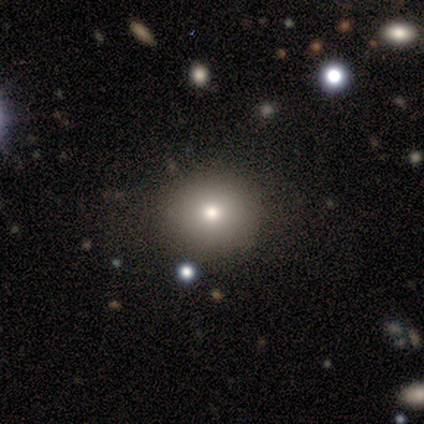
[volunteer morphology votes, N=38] A smooth galaxy with no disk features (71%) that is round (89%).

Vote fractions:
- Smooth or featured? smooth: 71% / featured or disk: 16% / star or artifact: 13%
- How rounded? round: 89% / in between: 11% / cigar-shaped: 0%
- Merging? none: 91% / minor disturbance: 9% / major disturbance: 0% / merger: 0%